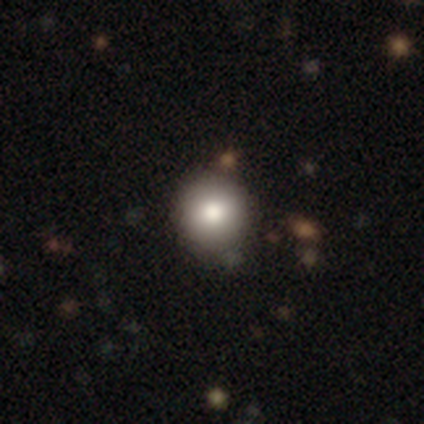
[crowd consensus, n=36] A smooth galaxy with no disk features (86%) that is round (94%). Merging: none (51%).